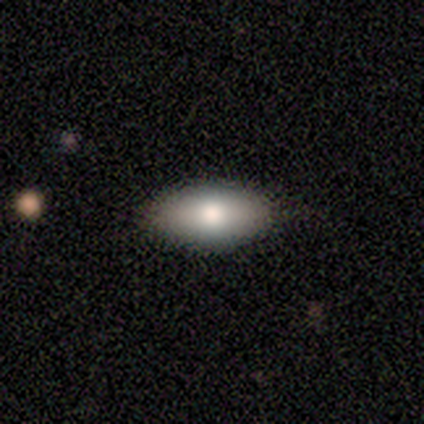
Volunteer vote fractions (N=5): smooth 80%, featured or disk 20%, star or artifact 0%. Down the decision tree: how rounded — in between (100%); merging — none (100%).